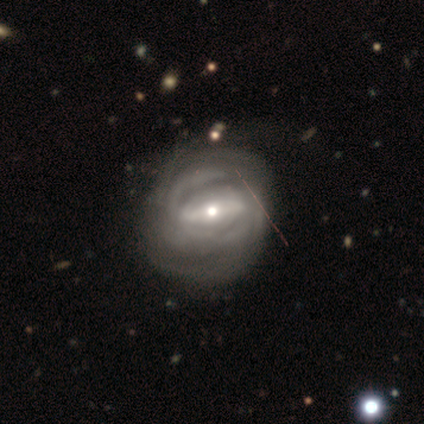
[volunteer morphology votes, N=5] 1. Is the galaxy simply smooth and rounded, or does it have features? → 80% featured or disk, 20% star or artifact, 0% smooth.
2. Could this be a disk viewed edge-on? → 75% no, 25% yes.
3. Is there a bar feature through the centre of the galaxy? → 67% strong, 33% no, 0% weak.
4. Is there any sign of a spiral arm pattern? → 100% yes, 0% no.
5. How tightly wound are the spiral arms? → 67% tight, 33% medium, 0% loose.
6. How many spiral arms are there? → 67% can't tell, 33% 2, 0% 1, 0% 3, 0% 4, 0% more than 4.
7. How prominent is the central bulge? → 67% small, 33% moderate, 0% dominant, 0% large, 0% none.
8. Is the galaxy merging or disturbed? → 75% minor disturbance, 25% none, 0% major disturbance, 0% merger.